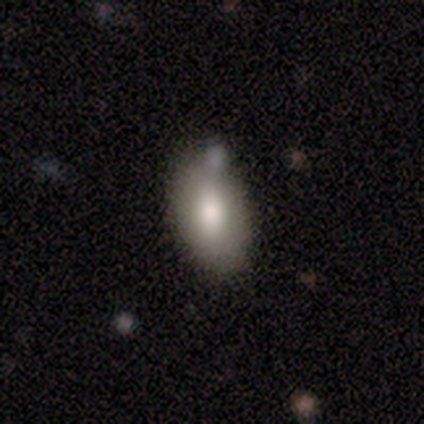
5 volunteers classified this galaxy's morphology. A smooth galaxy with no disk features (60%) that is in between round and cigar-shaped (67%). Merging: none (100%).